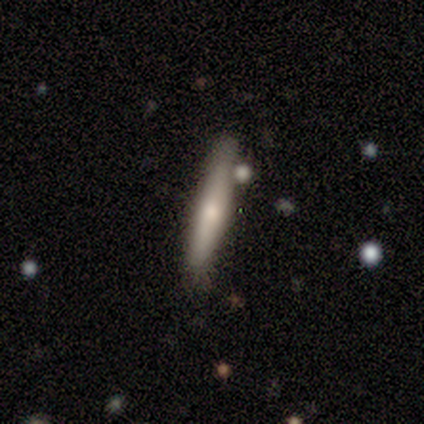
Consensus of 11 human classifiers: Volunteers were most divided on "smooth or featured": smooth: 55%, featured or disk: 45%, star or artifact: 0%. More confident: how rounded — cigar-shaped (100%); merging — none (73%).